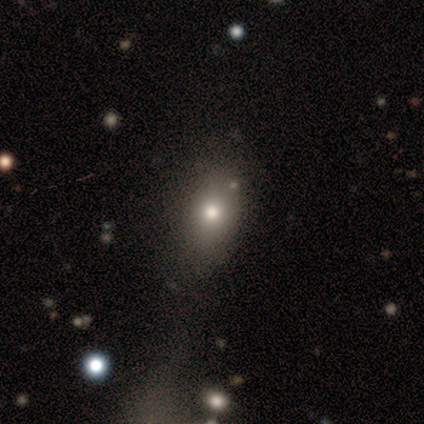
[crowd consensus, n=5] smooth-or-featured: smooth: 80% | star or artifact: 20% | featured or disk: 0%
  how-rounded: in between: 100% | round: 0% | cigar-shaped: 0%
  merging: none: 50% (tied) | major disturbance: 50% (tied) | minor disturbance: 0% | merger: 0%